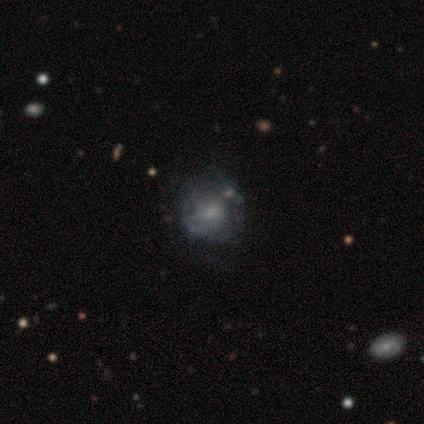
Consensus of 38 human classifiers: A featured or disk galaxy (55%) with no bar (67%), no spiral arms (62%) and a moderate central bulge (52%). Merging: none (73%).